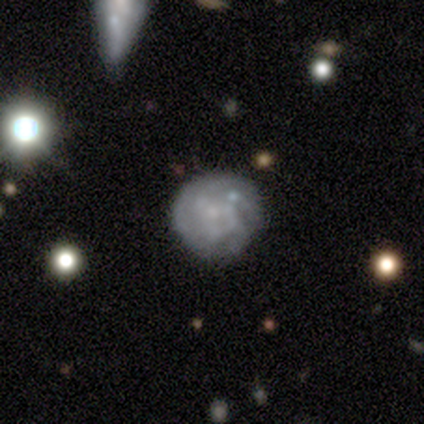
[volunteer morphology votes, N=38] This is likely a featured or disk galaxy (74%). It is clearly not viewed edge-on (100%). Bar: clearly no (82%). Spiral arm pattern: possibly yes (54%). Spiral arm count: likely can't tell (67%). Spiral winding: possibly tight (53%). Central bulge: possibly none (57%). Merging: likely none (74%).